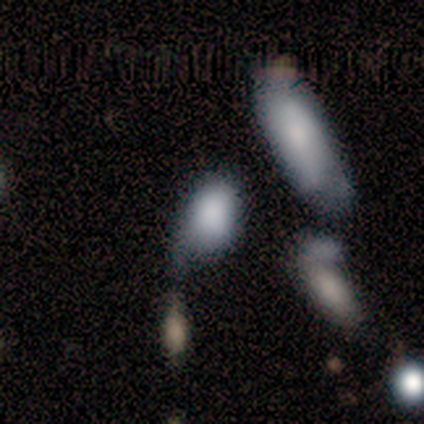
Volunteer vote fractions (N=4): Smooth or featured: featured or disk — 50% (smooth — 25%)
Edge-on disk: no — 100%
Bar: no — 100%
Spiral arms: no — 100%
Bulge size: dominant — 50% (tied with none — 50%)
Merging: none — 33% (tied with minor disturbance — 33%; merger — 33%)